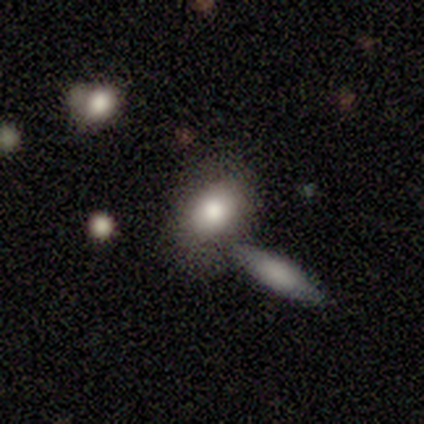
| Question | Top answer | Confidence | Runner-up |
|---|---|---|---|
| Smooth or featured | smooth | 80% | star or artifact (20%) |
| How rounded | in between | 100% | — |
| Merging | none | 75% | merger (25%) |